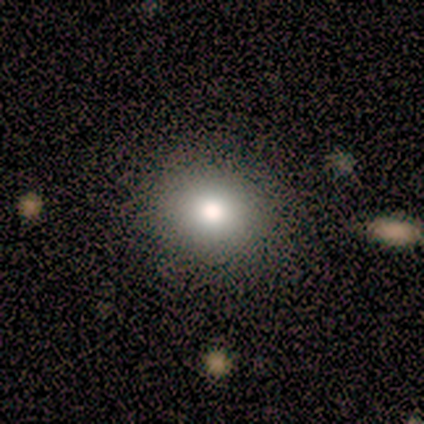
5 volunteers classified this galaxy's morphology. This is clearly a smooth galaxy (80%). How rounded: likely in between (75%). Merging: clearly none (100%).